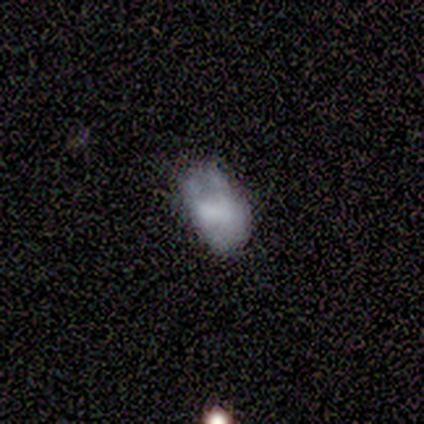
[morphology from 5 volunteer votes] This appears to be a smooth galaxy with no disk features (80%) that is in between round and cigar-shaped (100%). Merging: none (40%, tied with major disturbance).